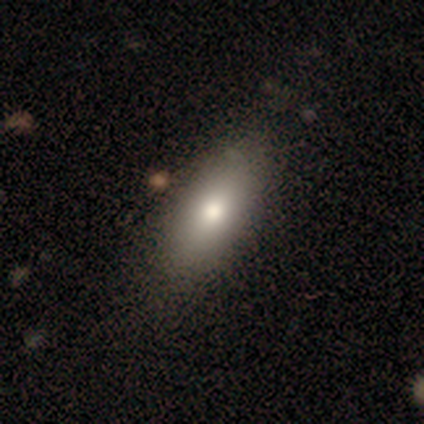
Overall: smooth (80%). How rounded: in between (75%). Merging: none (100%).